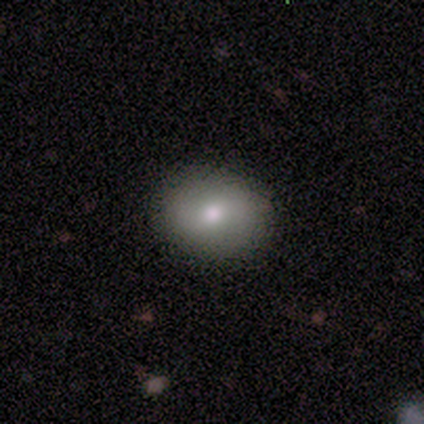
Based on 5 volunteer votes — Morphology: type=smooth (100%); roundness=round (80%); merging=none (100%).